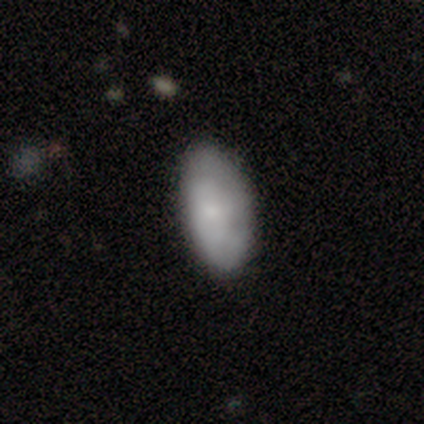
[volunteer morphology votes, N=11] Overall: smooth (73%). How rounded: in between (88%). Merging: none (78%).